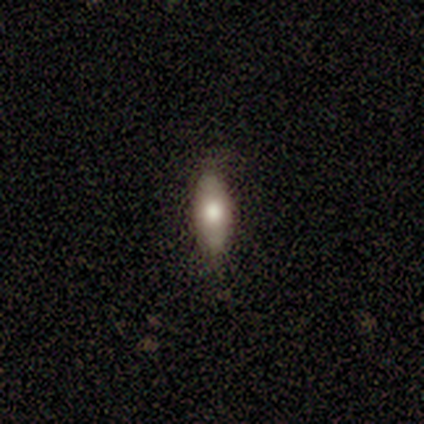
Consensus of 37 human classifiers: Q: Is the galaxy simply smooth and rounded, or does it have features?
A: smooth — 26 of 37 (70%).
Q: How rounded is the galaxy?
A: in between — 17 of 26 (65%).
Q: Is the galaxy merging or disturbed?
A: none — 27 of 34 (79%).